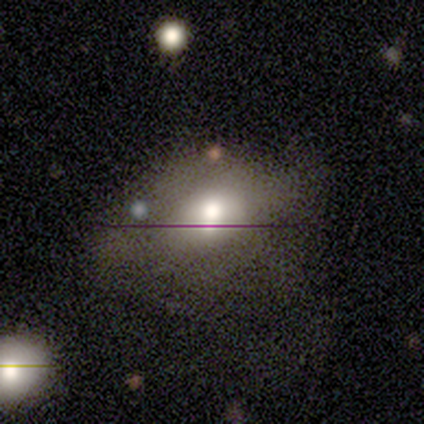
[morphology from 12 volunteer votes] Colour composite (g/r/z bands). It shows a smooth galaxy with no disk features (50%) that is in between round and cigar-shaped (83%). Merging: none (40%, tied with minor disturbance).